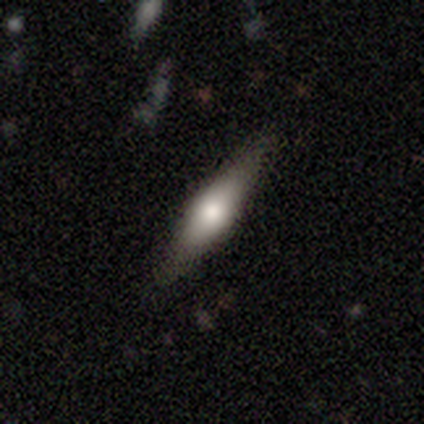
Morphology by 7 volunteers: Smooth or featured?
  - smooth: 57% *
  - featured or disk: 43%
  - star or artifact: 0%
How rounded?
  - in between: 50% * (tied)
  - cigar-shaped: 50% * (tied)
  - round: 0%
Merging?
  - none: 86% *
  - minor disturbance: 14%
  - major disturbance: 0%
  - merger: 0%